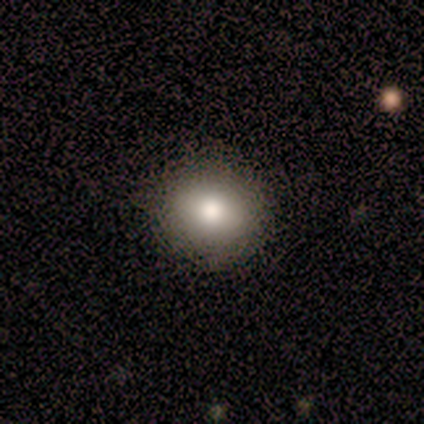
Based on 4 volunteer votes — smooth 100%, featured or disk 0%, star or artifact 0%. Down the decision tree: how rounded — round (75%); merging — none (100%).